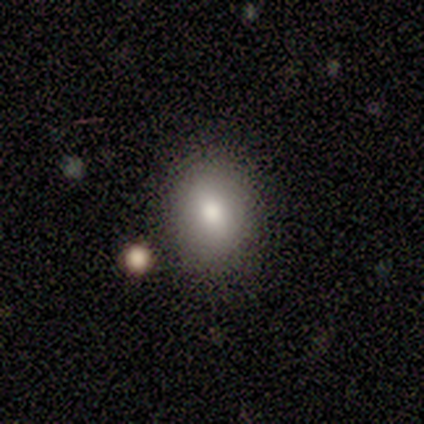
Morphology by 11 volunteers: Smooth or featured: smooth — 91% (star or artifact — 9%)
How rounded: round — 60% (in between — 40%)
Merging: none — 70% (minor disturbance — 10%)